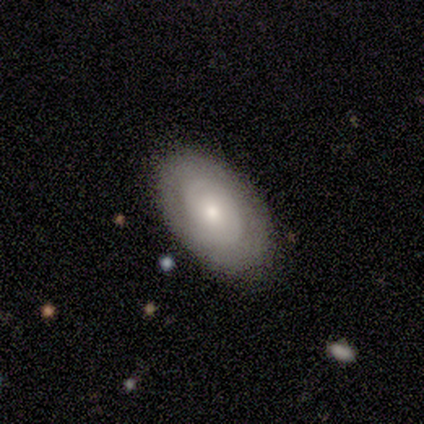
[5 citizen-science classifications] Smooth or featured? 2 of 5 (40%, tied with featured or disk) said smooth. How rounded? 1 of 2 (50%, tied with in between) said round. Merging? 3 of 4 (75%) said none.